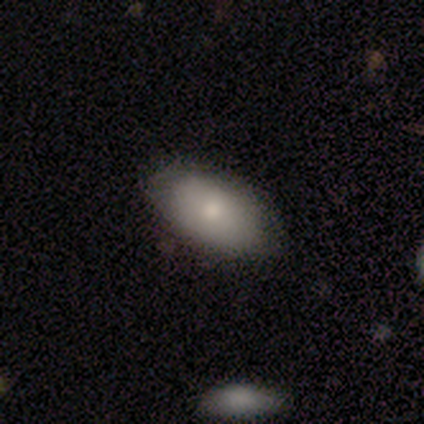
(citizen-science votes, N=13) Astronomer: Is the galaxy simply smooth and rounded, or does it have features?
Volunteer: smooth — 77%.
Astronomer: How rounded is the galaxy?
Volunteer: in between — 100%.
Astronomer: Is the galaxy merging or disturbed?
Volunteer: none — 100%.